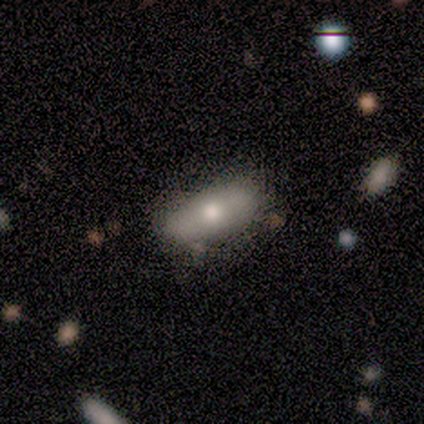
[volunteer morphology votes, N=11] Volunteers were most divided on "smooth or featured": smooth: 45%, featured or disk: 36%, star or artifact: 18%. More confident: how rounded — cigar-shaped (80%); merging — none (67%).